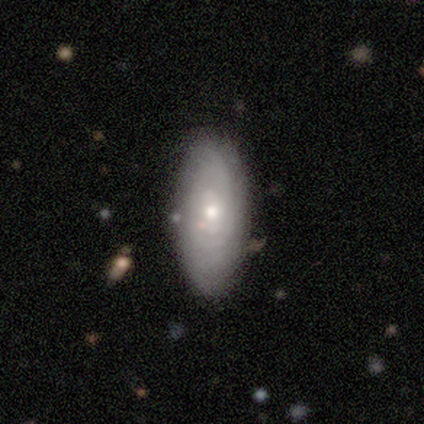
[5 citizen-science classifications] smooth_or_featured: featured or disk (p=0.60) [alt: smooth p=0.40]
disk_edge_on: no (p=1.00)
bar: no (p=1.00)
has_spiral_arms: yes (p=0.67) [alt: no p=0.33]
spiral_winding: tight (p=1.00)
spiral_arm_count: can't tell (p=1.00)
bulge_size: moderate (p=0.67) [alt: small p=0.33]
merging: none (p=0.80) [alt: minor disturbance p=0.20]